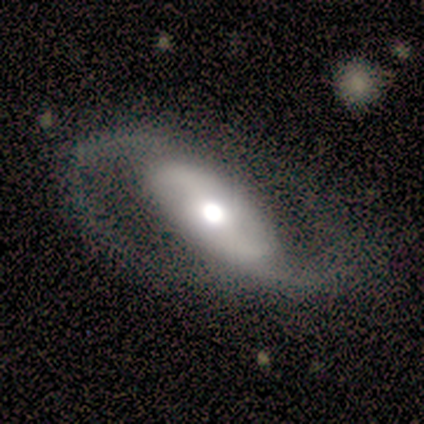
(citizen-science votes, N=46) This is clearly a featured or disk galaxy (98%). It is clearly not viewed edge-on (93%). Bar: possibly strong (52%). Spiral arm pattern: clearly yes (98%). Spiral arm count: clearly 2 (95%). Spiral winding: possibly medium (46%). Central bulge: possibly moderate (55%). Merging: likely none (72%).